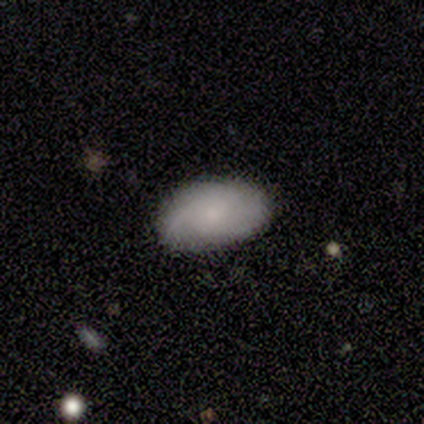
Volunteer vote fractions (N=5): Volunteers were most divided on "smooth or featured": smooth: 80%, featured or disk: 20%, star or artifact: 0%. More confident: how rounded — in between (100%); merging — none (80%).